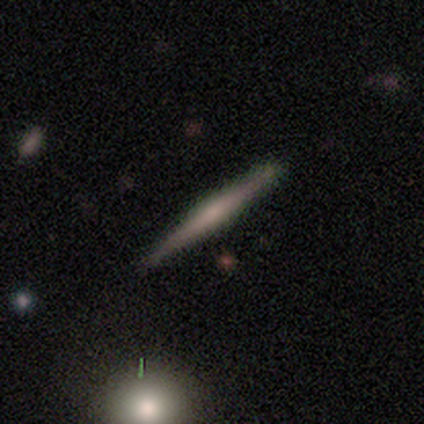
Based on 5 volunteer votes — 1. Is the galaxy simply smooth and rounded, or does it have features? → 80% featured or disk, 20% smooth, 0% star or artifact.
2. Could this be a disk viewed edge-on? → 100% yes, 0% no.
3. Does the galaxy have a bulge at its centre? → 50% none (tied), 50% rounded (tied), 0% boxy.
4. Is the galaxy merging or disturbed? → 80% none, 20% major disturbance, 0% minor disturbance, 0% merger.